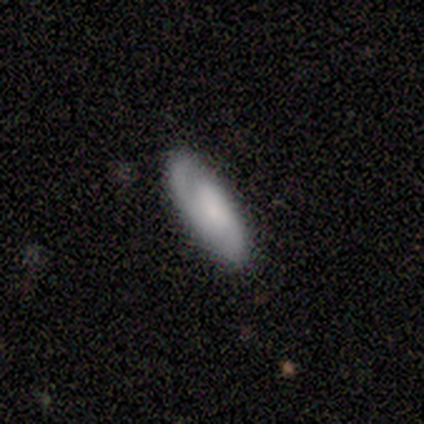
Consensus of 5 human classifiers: Overall: smooth (60%; featured or disk 40%). How rounded: in between (67%; cigar-shaped 33%). Merging: none (60%; minor disturbance 40%).